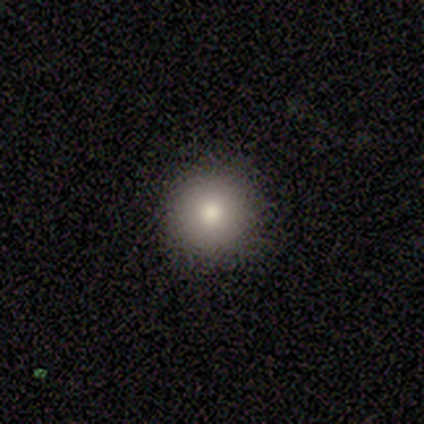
smooth_or_featured: smooth (p=0.80) [alt: featured or disk p=0.20]
how_rounded: round (p=1.00)
merging: none (p=1.00)